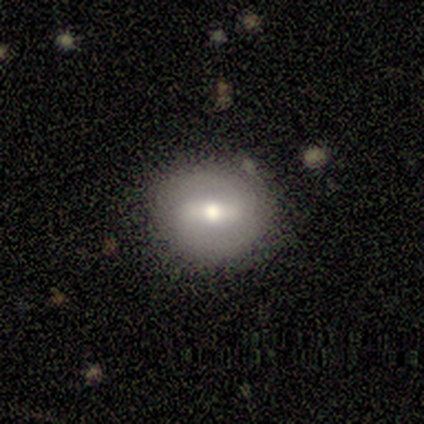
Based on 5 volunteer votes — Smooth or featured? featured or disk (60%)
Edge-on disk? no (100%)
Bar? strong (67%)
Spiral arms? yes (67%)
Spiral winding? medium (100%)
Spiral arm count? 2 (100%)
Bulge size? moderate (67%)
Merging? none (80%)